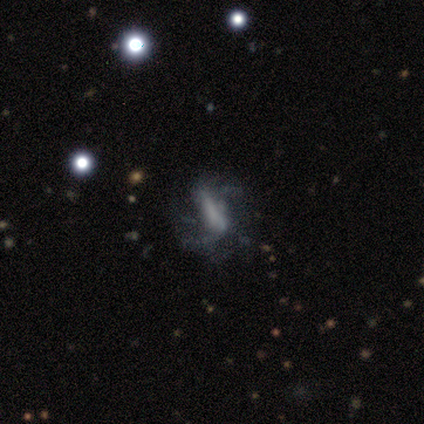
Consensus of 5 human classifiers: Q: Smooth or featured?
A: featured or disk (60%); runner-up: smooth (40%)
Q: Edge-on disk?
A: no (100%)
Q: Bar?
A: strong (67%); runner-up: no (33%)
Q: Spiral arms?
A: yes (67%); runner-up: no (33%)
Q: Spiral winding?
A: loose (100%)
Q: Spiral arm count?
A: 2 (50%); tied with: can't tell (50%)
Q: Bulge size?
A: none (67%); runner-up: large (33%)
Q: Merging?
A: none (40%); tied with: major disturbance (40%)